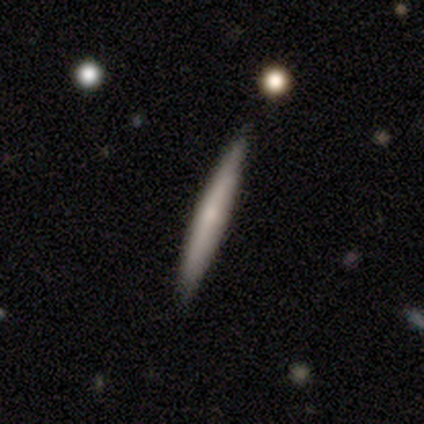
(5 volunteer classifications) A smooth galaxy with no disk features (80%) that is cigar-shaped (100%).

Vote fractions:
- Smooth or featured? smooth: 80% / star or artifact: 20% / featured or disk: 0%
- How rounded? cigar-shaped: 100% / round: 0% / in between: 0%
- Merging? none: 100% / minor disturbance: 0% / major disturbance: 0% / merger: 0%